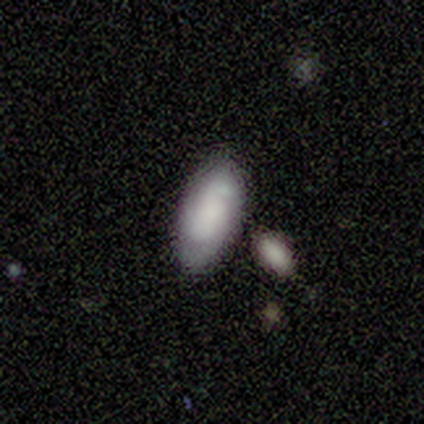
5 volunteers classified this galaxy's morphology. Volunteers were most divided on "smooth or featured": smooth: 80%, featured or disk: 20%, star or artifact: 0%. More confident: how rounded — in between (100%); merging — none (80%).